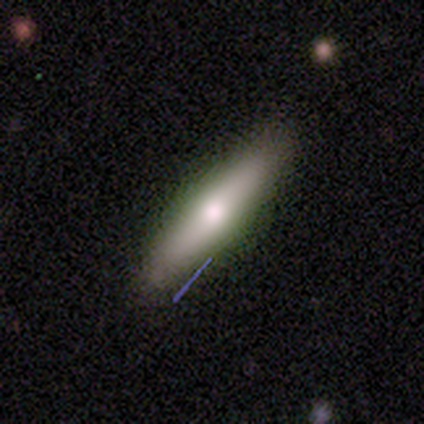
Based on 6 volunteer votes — A smooth galaxy with no disk features (67%) that is cigar-shaped (75%). Merging: none (83%).